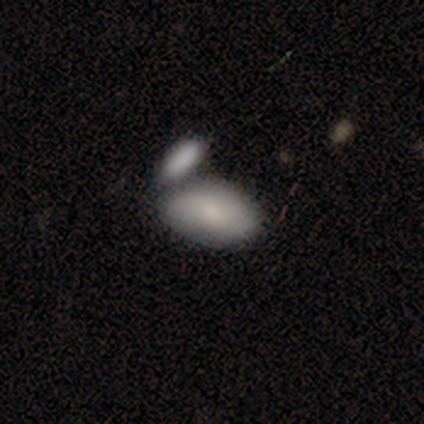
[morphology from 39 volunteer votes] Smooth or featured: smooth — 77% (featured or disk — 13%)
How rounded: in between — 100%
Merging: merger — 63% (none — 23%)